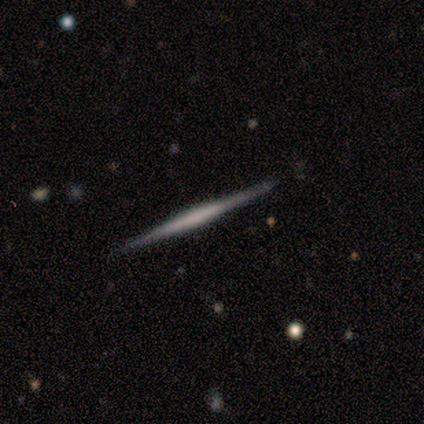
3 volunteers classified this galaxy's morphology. featured or disk 100%, smooth 0%, star or artifact 0%. Down the decision tree: edge-on disk — yes (100%); edge-on bulge — boxy (67%); merging — none (100%).